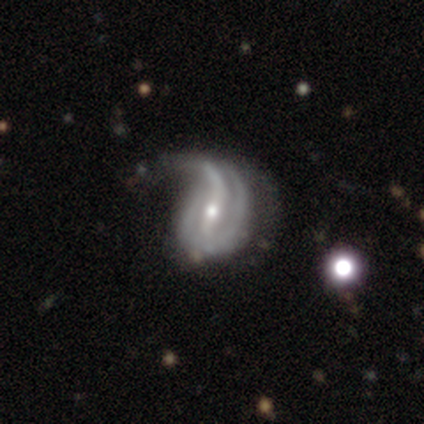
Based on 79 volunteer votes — A featured or disk galaxy (90%) with a strong bar (48%), 2 (46%) loose (56%) spiral arms (86%) and a small central bulge (51%).

Vote fractions:
- Smooth or featured? featured or disk: 90% / smooth: 5% / star or artifact: 5%
- Edge-on disk? no: 100% / yes: 0%
- Bar? strong: 48% / weak: 35% / no: 17%
- Spiral arms? yes: 86% / no: 14%
- Spiral winding? loose: 56% / medium: 28% / tight: 16%
- Spiral arm count? 2: 46% / can't tell: 23% / 1: 18% / 3: 10% / 4: 3% / more than 4: 0%
- Bulge size? small: 51% / moderate: 45% / large: 3% / none: 1% / dominant: 0%
- Merging? major disturbance: 28% / minor disturbance: 19% / none: 7% / merger: 0%